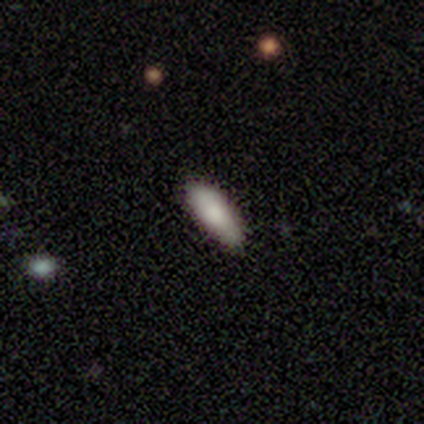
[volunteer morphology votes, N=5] Volunteers were most divided on "how rounded": in between: 80%, cigar-shaped: 20%, round: 0%. More confident: smooth or featured — smooth (100%); merging — none (100%).